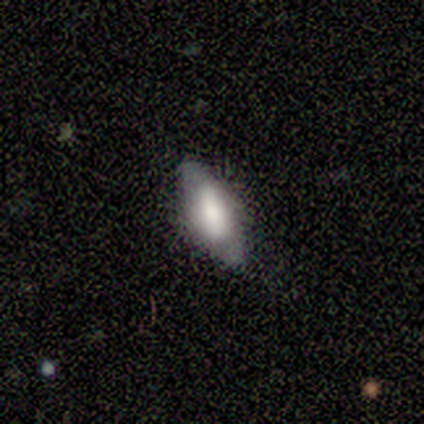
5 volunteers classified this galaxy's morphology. Overall: smooth (60%; featured or disk 40%). How rounded: in between (67%; cigar-shaped 33%). Merging: none (80%).